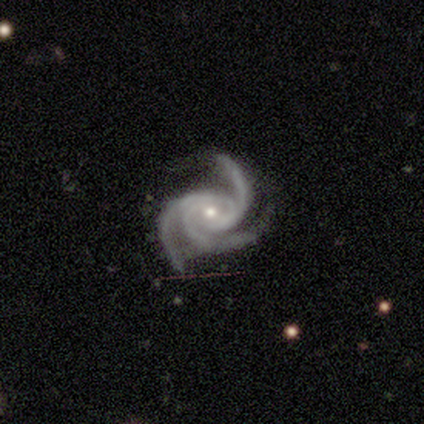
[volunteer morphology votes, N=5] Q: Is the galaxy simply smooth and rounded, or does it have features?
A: featured or disk — 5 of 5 (100%).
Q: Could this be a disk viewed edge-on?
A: no — 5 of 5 (100%).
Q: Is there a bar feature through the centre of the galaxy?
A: weak — 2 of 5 (40%, tied with no).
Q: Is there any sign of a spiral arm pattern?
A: yes — 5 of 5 (100%).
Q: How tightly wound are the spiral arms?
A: medium — 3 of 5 (60%).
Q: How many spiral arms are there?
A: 3 — 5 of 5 (100%).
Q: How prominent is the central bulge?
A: small — 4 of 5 (80%).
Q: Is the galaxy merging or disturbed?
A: none — 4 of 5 (80%).